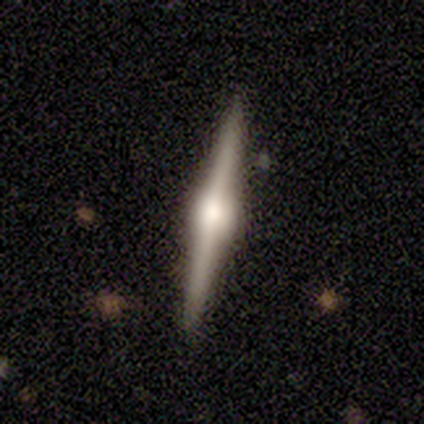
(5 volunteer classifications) Overall: featured or disk (60%; smooth 40%). Edge-on disk: yes (100%). Edge-on bulge: rounded (100%). Merging: none (40%, tied with minor disturbance).